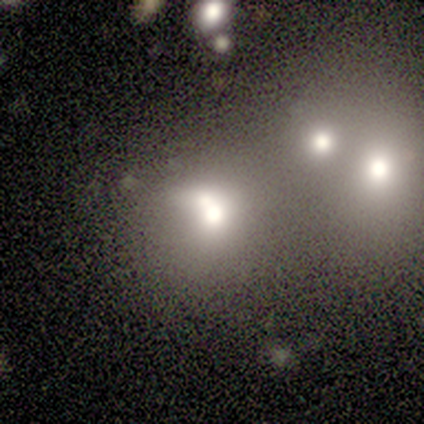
smooth 40% (tied), star or artifact 40% (tied), featured or disk 20%. Down the decision tree: how rounded — round (100%); merging — merger (67%).